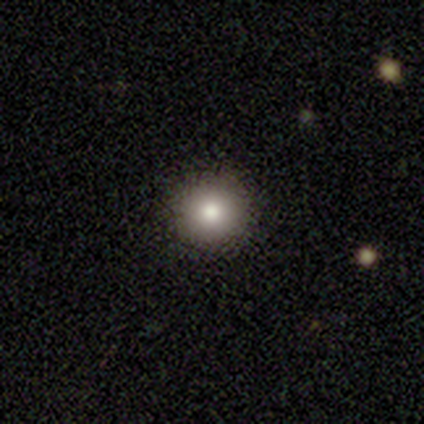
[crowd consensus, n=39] Q: Smooth or featured?
A: smooth (82%); runner-up: star or artifact (10%)
Q: How rounded?
A: round (88%); runner-up: in between (12%)
Q: Merging?
A: none (94%); runner-up: minor disturbance (3%)